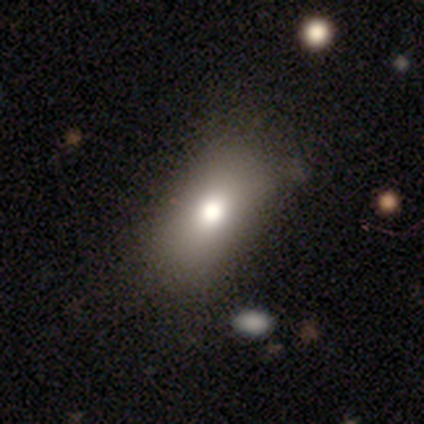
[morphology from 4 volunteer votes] A smooth galaxy with no disk features (75%) that is in between round and cigar-shaped (67%). Merging: minor disturbance (50%).